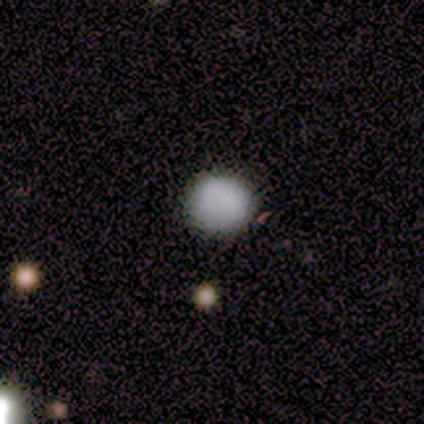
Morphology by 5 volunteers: type=smooth (100%); roundness=round (100%); merging=none (100%).